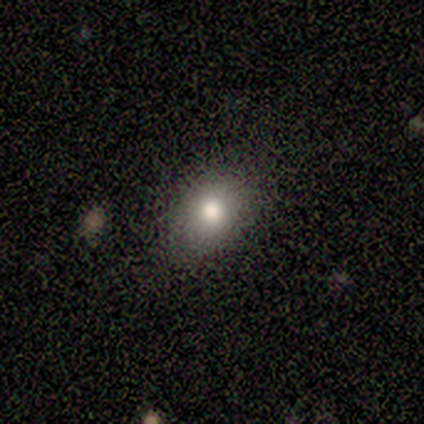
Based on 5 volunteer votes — A smooth galaxy with no disk features (100%) that is in between round and cigar-shaped (60%). Merging: none (100%).